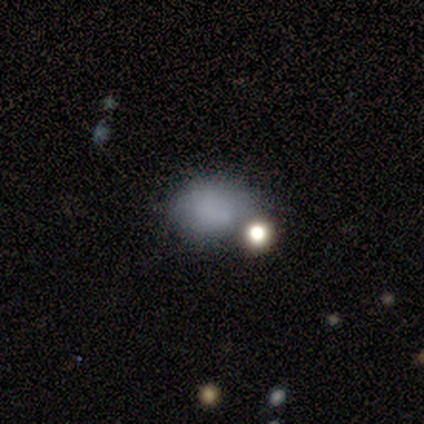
This appears to be a smooth galaxy with no disk features (72%) that is in between round and cigar-shaped (61%). Merging: none (46%).